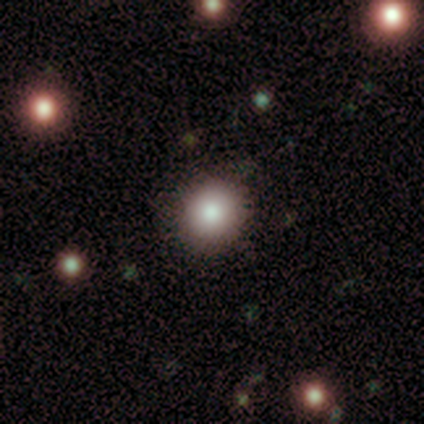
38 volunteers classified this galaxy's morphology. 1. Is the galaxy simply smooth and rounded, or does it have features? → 68% smooth, 21% featured or disk, 11% star or artifact.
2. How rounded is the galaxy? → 81% round, 15% in between, 4% cigar-shaped.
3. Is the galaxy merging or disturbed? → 97% none, 3% minor disturbance, 0% major disturbance, 0% merger.